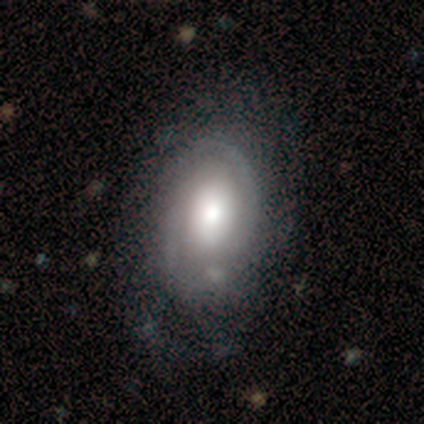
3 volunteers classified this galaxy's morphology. A smooth galaxy with no disk features (100%) that is in between round and cigar-shaped (100%). Merging: none (100%).